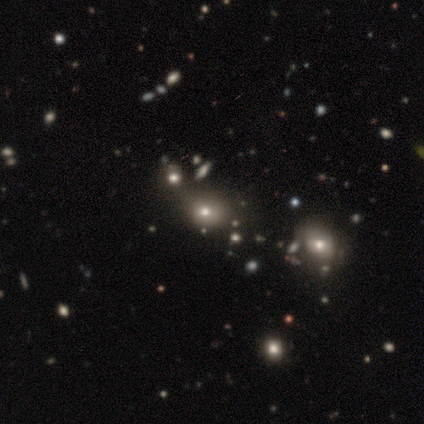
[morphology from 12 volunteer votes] smooth-or-featured: smooth: 67% | star or artifact: 33% | featured or disk: 0%
  how-rounded: round: 50% (tied) | in between: 50% (tied) | cigar-shaped: 0%
  merging: none: 50% | minor disturbance: 25% | merger: 25% | major disturbance: 0%